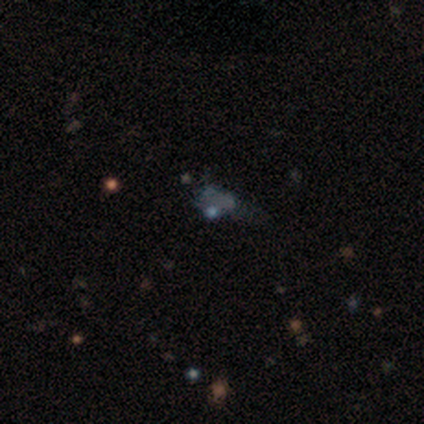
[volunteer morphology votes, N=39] A star or artifact, not a galaxy (56%).